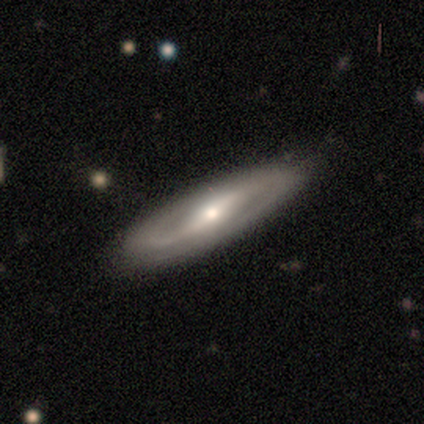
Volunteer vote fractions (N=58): Q: Smooth or featured?
A: featured or disk (83%); runner-up: smooth (12%)
Q: Edge-on disk?
A: no (75%); runner-up: yes (25%)
Q: Bar?
A: strong (47%); runner-up: weak (31%)
Q: Spiral arms?
A: yes (83%); runner-up: no (17%)
Q: Spiral winding?
A: medium (37%); runner-up: tight (33%)
Q: Spiral arm count?
A: 2 (77%); runner-up: can't tell (20%)
Q: Bulge size?
A: moderate (58%); runner-up: small (31%)
Q: Merging?
A: none (80%); runner-up: minor disturbance (16%)